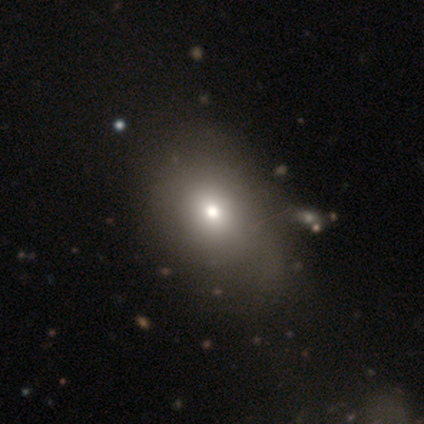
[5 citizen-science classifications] Smooth or featured?
  - smooth: 40% * (tied)
  - star or artifact: 40% * (tied)
  - featured or disk: 20%
How rounded?
  - round: 50% * (tied)
  - in between: 50% * (tied)
  - cigar-shaped: 0%
Merging?
  - none: 33% * (tied)
  - minor disturbance: 33% * (tied)
  - merger: 33% * (tied)
  - major disturbance: 0%